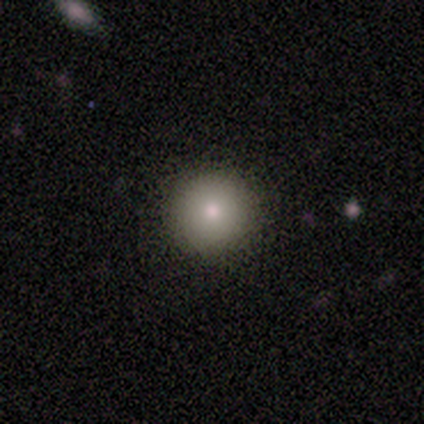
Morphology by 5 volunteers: smooth-or-featured: smooth: 80% | star or artifact: 20% | featured or disk: 0%
  how-rounded: round: 100% | in between: 0% | cigar-shaped: 0%
  merging: none: 75% | minor disturbance: 25% | major disturbance: 0% | merger: 0%